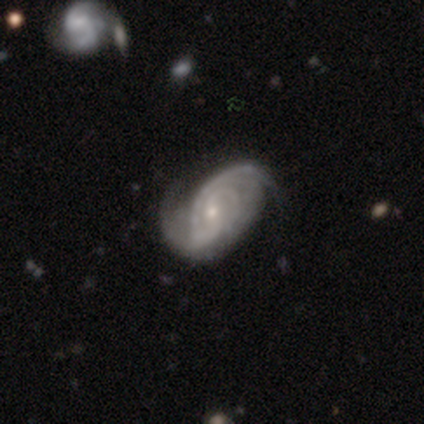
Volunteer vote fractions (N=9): smooth-or-featured: featured or disk: 89% | smooth: 11% | star or artifact: 0%
  disk-edge-on: no: 100% | yes: 0%
    bar: weak: 88% | no: 12% | strong: 0%
    has-spiral-arms: yes: 100% | no: 0%
      spiral-winding: tight: 50% (tied) | medium: 50% (tied) | loose: 0%
      spiral-arm-count: 2: 50% | 3: 25% | 4: 12% | can't tell: 12% | 1: 0% | more than 4: 0%
    bulge-size: small: 88% | moderate: 12% | dominant: 0% | large: 0% | none: 0%
  merging: none: 33% (tied) | minor disturbance: 33% (tied) | major disturbance: 22% | merger: 11%